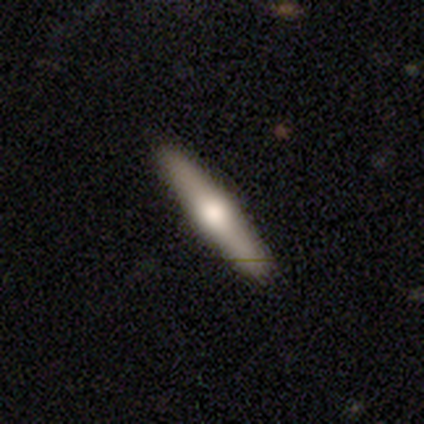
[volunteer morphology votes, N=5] Smooth or featured? smooth (60%)
How rounded? cigar-shaped (100%)
Merging? none (100%)